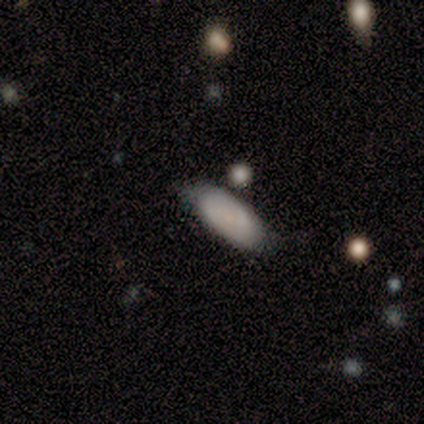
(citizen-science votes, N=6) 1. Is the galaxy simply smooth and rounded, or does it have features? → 100% smooth, 0% featured or disk, 0% star or artifact.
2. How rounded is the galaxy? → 83% in between, 17% cigar-shaped, 0% round.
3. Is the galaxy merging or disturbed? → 67% none, 33% minor disturbance, 0% major disturbance, 0% merger.